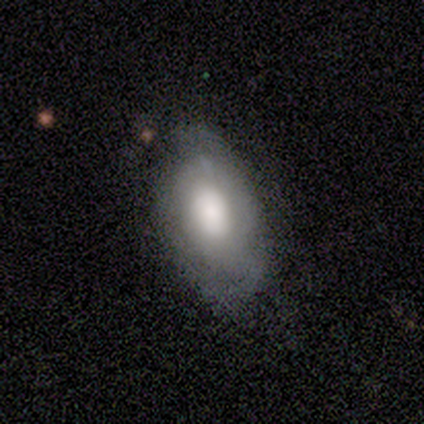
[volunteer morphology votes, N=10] A smooth galaxy with no disk features (60%) that is in between round and cigar-shaped (100%). Merging: minor disturbance (56%).